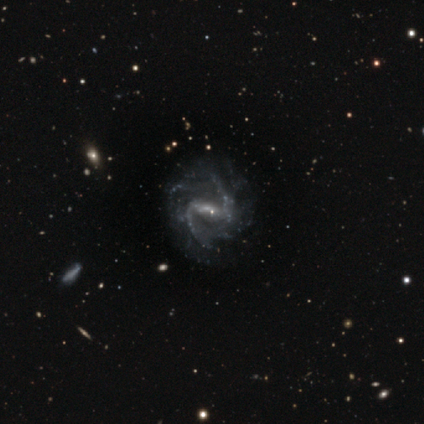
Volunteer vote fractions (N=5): smooth-or-featured: featured or disk: 100% | smooth: 0% | star or artifact: 0%
  disk-edge-on: no: 100% | yes: 0%
    bar: strong: 40% (tied) | weak: 40% (tied) | no: 20%
    has-spiral-arms: yes: 100% | no: 0%
      spiral-winding: medium: 60% | loose: 40% | tight: 0%
      spiral-arm-count: 2: 80% | can't tell: 20% | 1: 0% | 3: 0% | 4: 0% | more than 4: 0%
    bulge-size: small: 100% | dominant: 0% | large: 0% | moderate: 0% | none: 0%
  merging: minor disturbance: 40% (tied) | major disturbance: 40% (tied) | none: 20% | merger: 0%